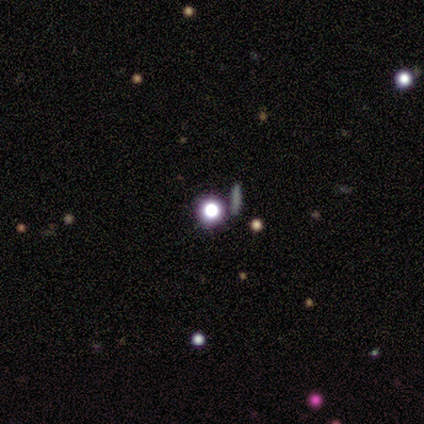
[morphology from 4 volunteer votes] type=star or artifact (75%).